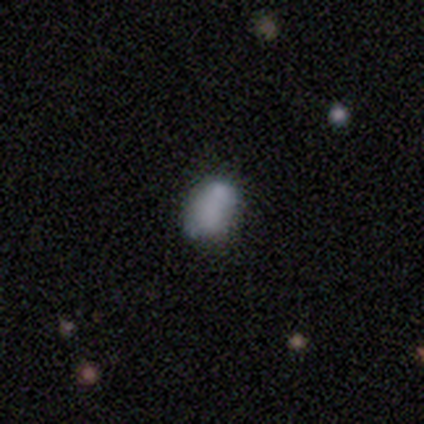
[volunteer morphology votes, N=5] Smooth or featured? 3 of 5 (60%) said smooth. How rounded? 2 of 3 (67%) said in between. Merging? 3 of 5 (60%) said none.